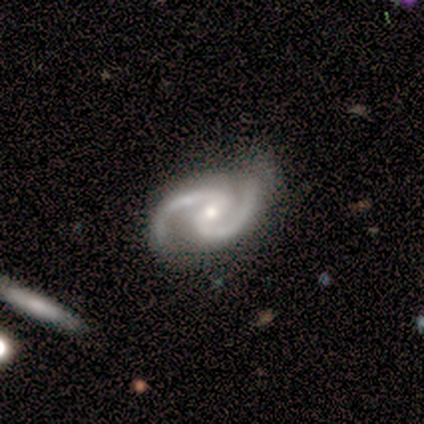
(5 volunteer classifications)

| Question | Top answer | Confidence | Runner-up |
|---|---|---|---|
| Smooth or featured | featured or disk | 80% | star or artifact (20%) |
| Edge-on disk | no | 100% | — |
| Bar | weak | 75% | strong (25%) |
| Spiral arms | yes | 100% | — |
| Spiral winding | medium | 50% | tight (25%) |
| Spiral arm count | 2 | 100% | — |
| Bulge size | moderate | 50% | tied: small (50%) |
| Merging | none | 75% | minor disturbance (25%) |